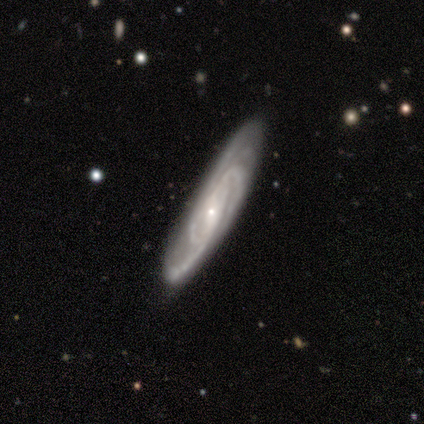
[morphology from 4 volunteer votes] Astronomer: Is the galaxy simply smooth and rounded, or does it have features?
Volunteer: featured or disk — 75%.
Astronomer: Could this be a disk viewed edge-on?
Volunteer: no — 100%.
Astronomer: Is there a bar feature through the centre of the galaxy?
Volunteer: no — 67%.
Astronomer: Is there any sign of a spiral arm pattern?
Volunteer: yes — 67%.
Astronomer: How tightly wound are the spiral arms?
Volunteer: medium — 50%, tied with loose at 50%.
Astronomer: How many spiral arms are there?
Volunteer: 3 — 50%, tied with 4 at 50%.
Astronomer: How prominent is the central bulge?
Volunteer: small — 67%.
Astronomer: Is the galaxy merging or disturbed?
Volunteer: none — 100%.